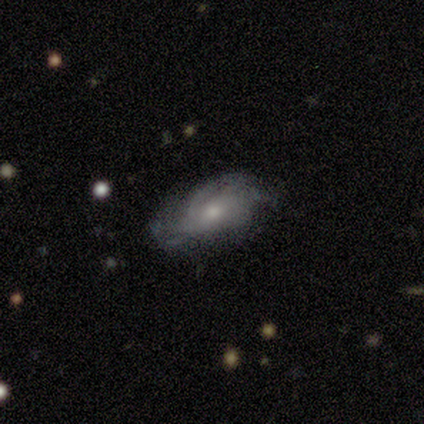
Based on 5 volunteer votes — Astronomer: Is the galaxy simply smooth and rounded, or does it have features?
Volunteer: featured or disk — 60%.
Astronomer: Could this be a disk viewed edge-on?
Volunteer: no — 100%.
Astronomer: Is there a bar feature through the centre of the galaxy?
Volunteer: no — 67%.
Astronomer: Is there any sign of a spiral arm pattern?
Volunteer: yes — 100%.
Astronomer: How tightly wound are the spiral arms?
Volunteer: tight — 67%.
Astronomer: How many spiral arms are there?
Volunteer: can't tell — 67%.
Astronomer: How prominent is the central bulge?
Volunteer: small — 100%.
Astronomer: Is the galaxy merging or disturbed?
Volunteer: none — 50%.